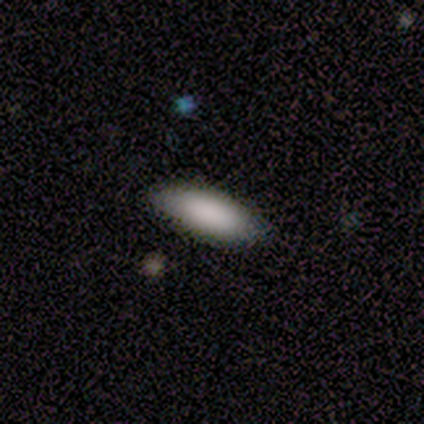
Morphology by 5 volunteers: smooth-or-featured: smooth: 100% | featured or disk: 0% | star or artifact: 0%
  how-rounded: in between: 100% | round: 0% | cigar-shaped: 0%
  merging: none: 100% | minor disturbance: 0% | major disturbance: 0% | merger: 0%